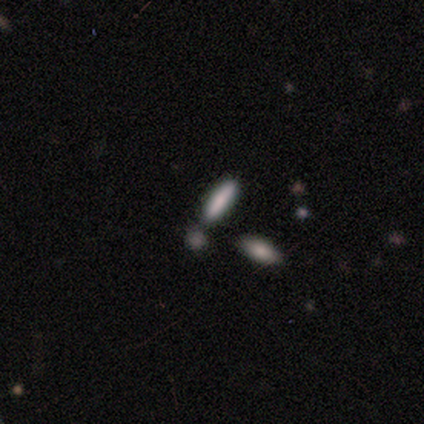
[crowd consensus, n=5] Volunteers were most divided on "merging": none: 80%, minor disturbance: 20%, major disturbance: 0%, merger: 0%. More confident: smooth or featured — smooth (100%); how rounded — cigar-shaped (100%).